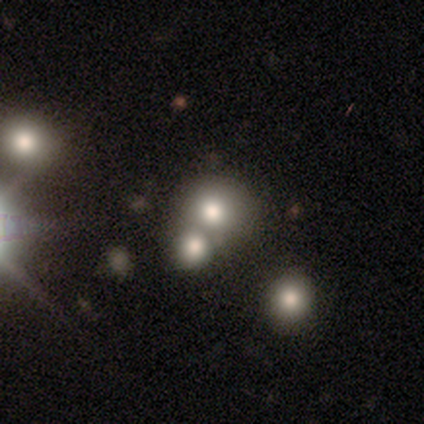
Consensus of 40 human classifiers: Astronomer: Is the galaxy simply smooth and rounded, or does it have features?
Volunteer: smooth — 75%.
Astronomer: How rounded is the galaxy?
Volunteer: round — 90%.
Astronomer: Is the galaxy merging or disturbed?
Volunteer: none — 50% (runner-up: merger, 47%).